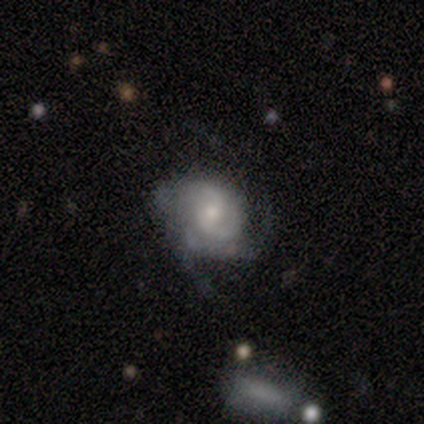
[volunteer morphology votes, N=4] smooth_or_featured: smooth (p=0.50) [tied with: featured or disk p=0.50]
how_rounded: round (p=0.50) [tied with: in between p=0.50]
merging: none (p=0.75) [alt: major disturbance p=0.25]